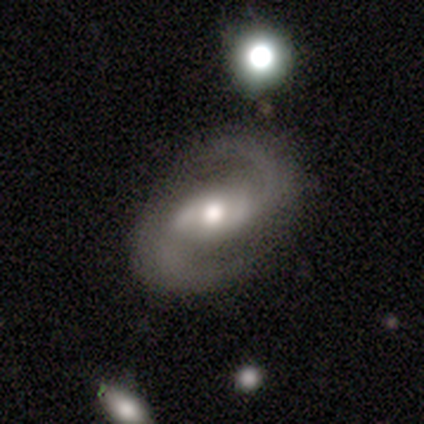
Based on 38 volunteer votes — Morphology: type=featured or disk (87%); edge-on=no (100%); bar=weak (42%); spiral arms=yes (94%); winding=medium (61%); arm count=2 (97%); bulge=moderate (82%); merging=none (86%).